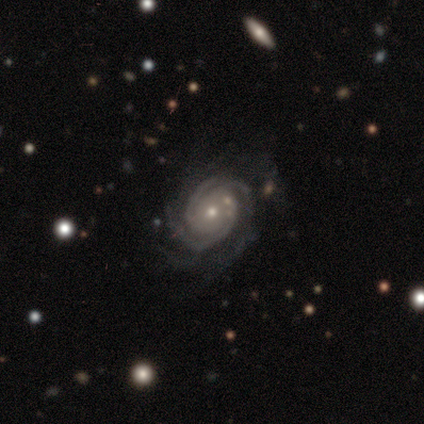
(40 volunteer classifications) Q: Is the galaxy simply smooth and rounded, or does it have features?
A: featured or disk — 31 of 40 (78%).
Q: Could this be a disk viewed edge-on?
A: no — 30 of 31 (97%).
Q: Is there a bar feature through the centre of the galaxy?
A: no — 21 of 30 (70%).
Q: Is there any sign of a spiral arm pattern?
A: yes — 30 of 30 (100%).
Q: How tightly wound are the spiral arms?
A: tight — 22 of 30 (73%).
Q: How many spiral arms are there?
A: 3 — 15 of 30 (50%).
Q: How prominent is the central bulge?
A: small — 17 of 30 (57%).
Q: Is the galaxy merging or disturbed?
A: none — 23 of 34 (68%).